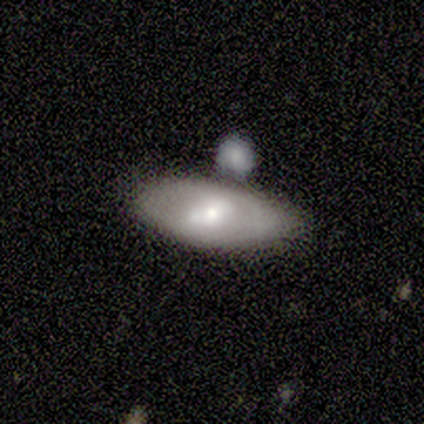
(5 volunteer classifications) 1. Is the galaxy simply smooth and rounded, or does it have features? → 60% smooth, 20% featured or disk, 20% star or artifact.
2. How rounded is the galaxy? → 100% in between, 0% round, 0% cigar-shaped.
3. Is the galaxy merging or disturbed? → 100% none, 0% minor disturbance, 0% major disturbance, 0% merger.